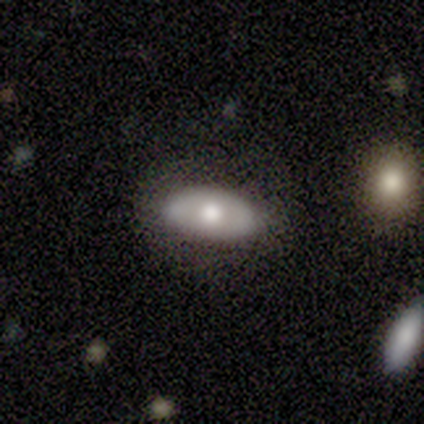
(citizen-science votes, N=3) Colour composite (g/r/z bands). It shows a featured or disk galaxy (67%) with no bar (100%), no spiral arms (100%) and a small central bulge (50%, tied with none). Merging: none (100%).